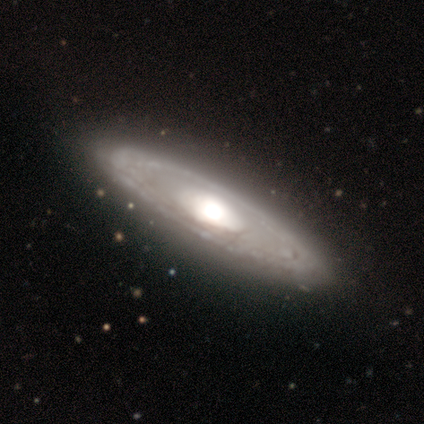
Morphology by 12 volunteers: smooth-or-featured: featured or disk: 83% | smooth: 17% | star or artifact: 0%
  disk-edge-on: no: 80% | yes: 20%
    bar: no: 75% | strong: 12% | weak: 12%
    has-spiral-arms: no: 62% | yes: 38%
    bulge-size: large: 50% (tied) | moderate: 50% (tied) | dominant: 0% | small: 0% | none: 0%
  merging: none: 83% | minor disturbance: 8% | merger: 8% | major disturbance: 0%